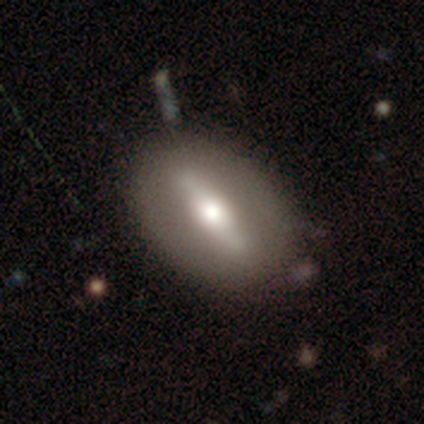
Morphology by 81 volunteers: A featured or disk galaxy (52%) with a strong bar (65%), no spiral arms (77%) and a moderate central bulge (58%).

Vote fractions:
- Smooth or featured? featured or disk: 52% / smooth: 42% / star or artifact: 6%
- Edge-on disk? no: 62% / yes: 38%
- Bar? strong: 65% / weak: 23% / no: 12%
- Spiral arms? no: 77% / yes: 23%
- Bulge size? moderate: 58% / large: 19% / small: 19% / none: 4% / dominant: 0%
- Merging? none: 79% / minor disturbance: 16% / major disturbance: 4% / merger: 1%